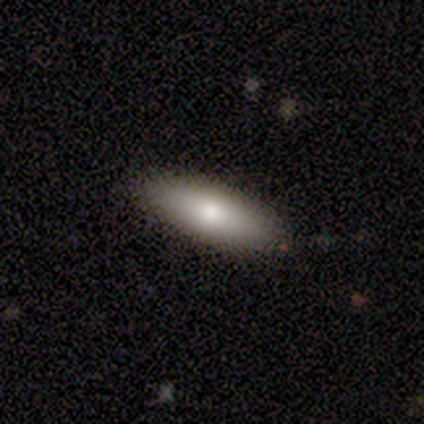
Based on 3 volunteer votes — A smooth galaxy with no disk features (100%) that is cigar-shaped (67%).

Vote fractions:
- Smooth or featured? smooth: 100% / featured or disk: 0% / star or artifact: 0%
- How rounded? cigar-shaped: 67% / in between: 33% / round: 0%
- Merging? none: 100% / minor disturbance: 0% / major disturbance: 0% / merger: 0%